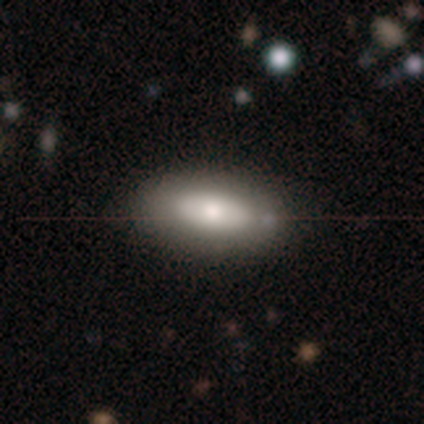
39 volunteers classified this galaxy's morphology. A smooth galaxy with no disk features (62%) that is in between round and cigar-shaped (88%). Merging: none (79%).